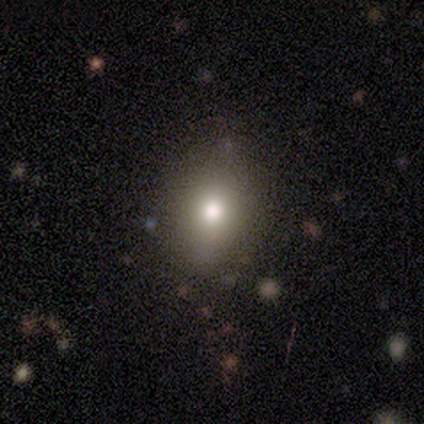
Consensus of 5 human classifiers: Smooth or featured?
  - smooth: 60% *
  - featured or disk: 20%
  - star or artifact: 20%
How rounded?
  - round: 67% *
  - in between: 33%
  - cigar-shaped: 0%
Merging?
  - none: 75% *
  - minor disturbance: 25%
  - major disturbance: 0%
  - merger: 0%